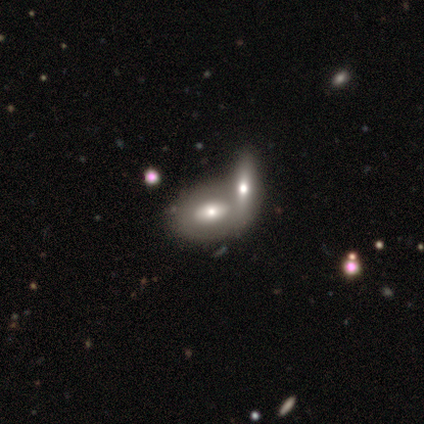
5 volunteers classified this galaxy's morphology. Volunteers were most divided on "smooth or featured": smooth: 60%, featured or disk: 40%, star or artifact: 0%. More confident: how rounded — in between (100%); merging — merger (60%).